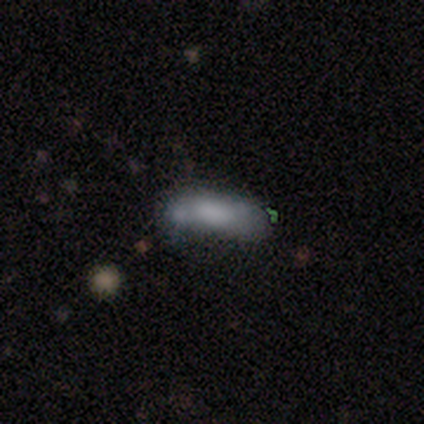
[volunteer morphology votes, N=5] smooth 80%, star or artifact 20%, featured or disk 0%. Down the decision tree: how rounded — cigar-shaped (100%); merging — minor disturbance (50%, tied with merger).